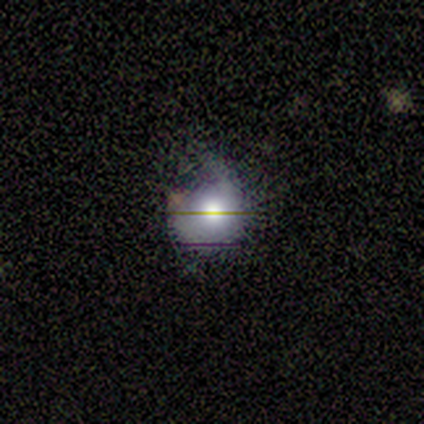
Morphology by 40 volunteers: smooth 50%, star or artifact 28%, featured or disk 22%. Down the decision tree: how rounded — round (85%); merging — none (48%).